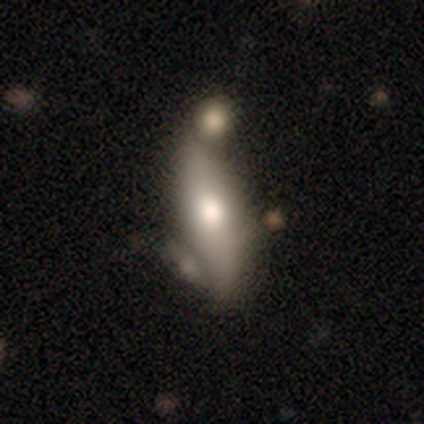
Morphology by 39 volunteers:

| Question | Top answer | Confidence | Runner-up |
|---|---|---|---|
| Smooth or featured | smooth | 56% | featured or disk (41%) |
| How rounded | in between | 68% | cigar-shaped (32%) |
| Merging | none | 53% | minor disturbance (21%) |